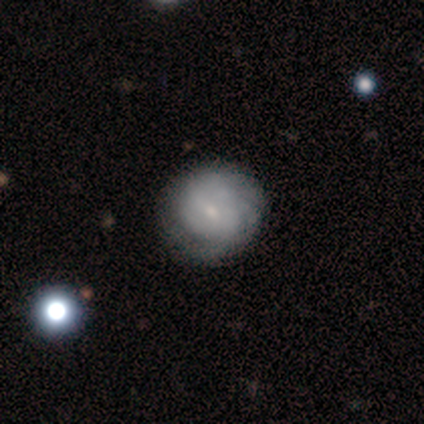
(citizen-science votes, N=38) Smooth or featured: featured or disk — 63% (smooth — 34%)
Edge-on disk: no — 100%
Bar: no — 79% (weak — 21%)
Spiral arms: yes — 79% (no — 21%)
Spiral winding: tight — 68% (medium — 21%)
Spiral arm count: can't tell — 79% (2 — 11%)
Bulge size: small — 54% (moderate — 25%)
Merging: none — 59% (minor disturbance — 16%)